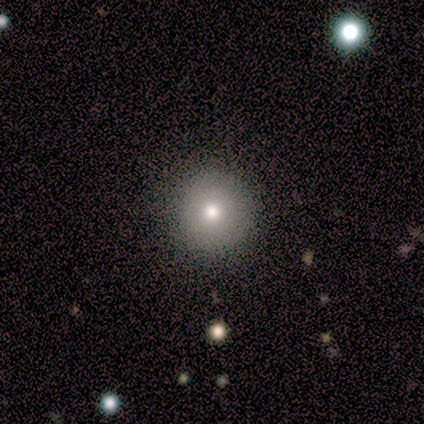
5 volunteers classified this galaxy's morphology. Smooth or featured? 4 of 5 (80%) said smooth. How rounded? 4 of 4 (100%) said round. Merging? 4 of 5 (80%) said none.